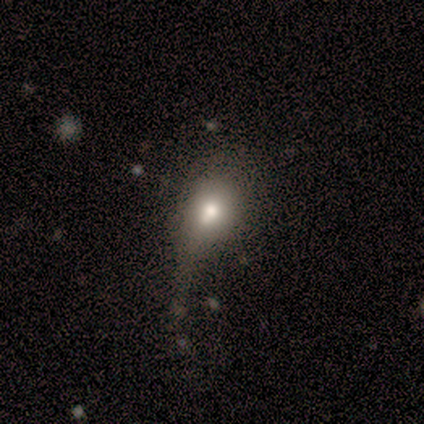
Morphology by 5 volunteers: This appears to be a smooth galaxy with no disk features (80%) that is round (50%, tied with in between). Merging: major disturbance (60%).